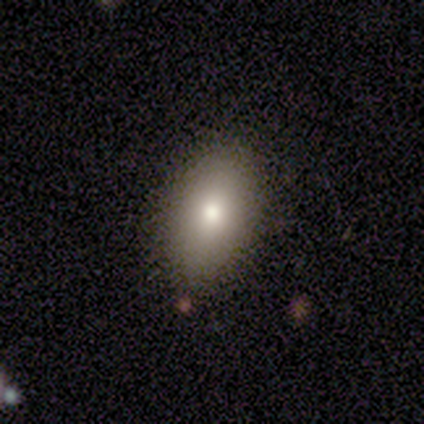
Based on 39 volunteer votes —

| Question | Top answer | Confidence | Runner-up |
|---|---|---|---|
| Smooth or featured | smooth | 87% | featured or disk (8%) |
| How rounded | in between | 100% | — |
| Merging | none | 86% | minor disturbance (14%) |